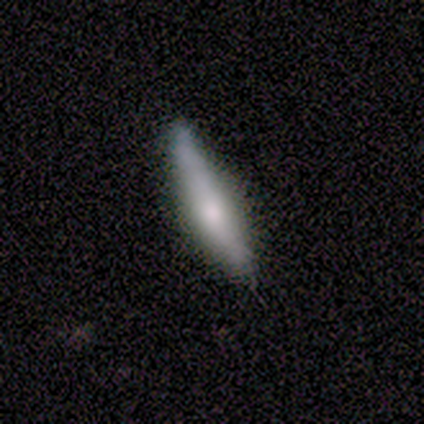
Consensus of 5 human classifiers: This is clearly a smooth galaxy (80%). How rounded: clearly cigar-shaped (100%). Merging: clearly none (80%).